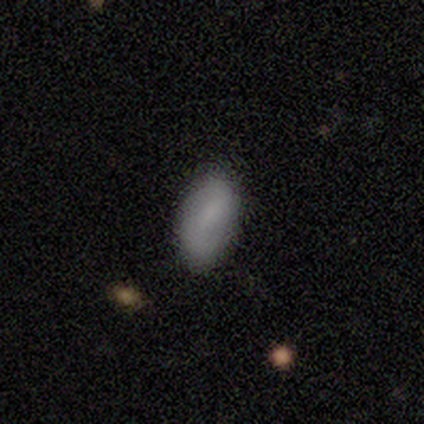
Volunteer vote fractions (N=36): Smooth or featured? 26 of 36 (72%) said smooth. How rounded? 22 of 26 (85%) said in between. Merging? 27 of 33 (82%) said none.